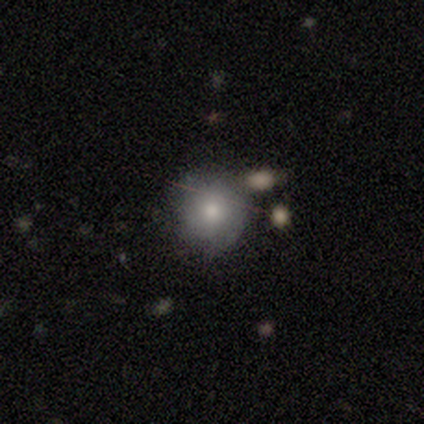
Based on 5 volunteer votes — Volunteers were most divided on "merging": none: 40%, minor disturbance: 20%, major disturbance: 20%, merger: 20%. More confident: smooth or featured — smooth (100%); how rounded — round (100%).